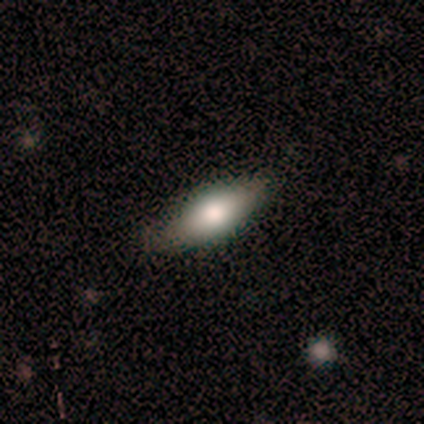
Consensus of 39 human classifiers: Smooth or featured? smooth (74%)
How rounded? cigar-shaped (52%)
Merging? none (92%)